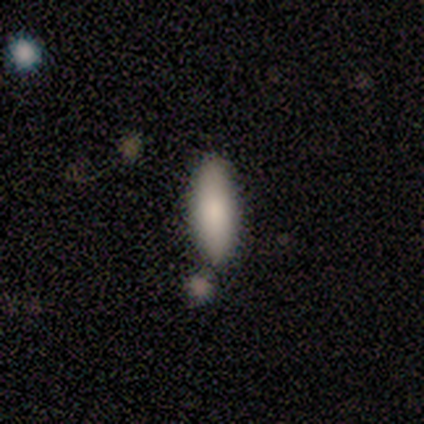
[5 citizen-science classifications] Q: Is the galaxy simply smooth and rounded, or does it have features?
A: smooth — 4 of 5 (80%).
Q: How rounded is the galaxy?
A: in between — 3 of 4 (75%).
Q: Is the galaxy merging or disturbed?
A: none — 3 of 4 (75%).